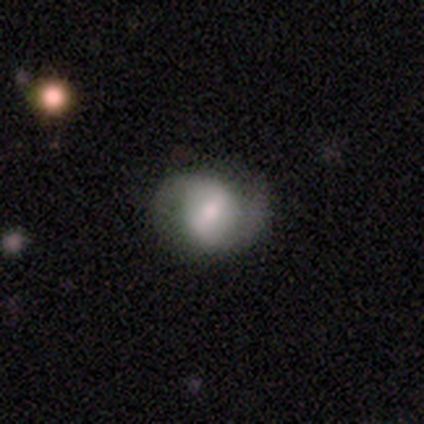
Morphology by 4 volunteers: Smooth or featured: featured or disk — 75% (smooth — 25%)
Edge-on disk: no — 100%
Bar: weak — 67% (strong — 33%)
Spiral arms: yes — 67% (no — 33%)
Spiral winding: tight — 50% (tied with medium — 50%)
Spiral arm count: 2 — 100%
Bulge size: moderate — 67% (small — 33%)
Merging: none — 100%